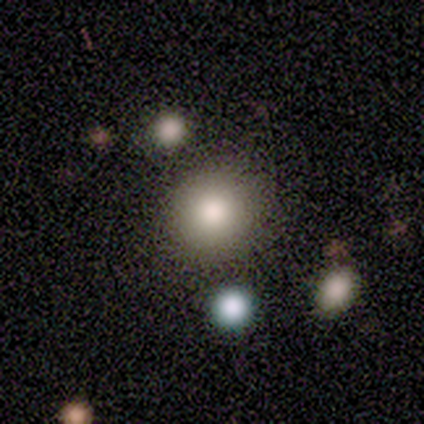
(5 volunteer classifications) smooth 80%, star or artifact 20%, featured or disk 0%. Down the decision tree: how rounded — round (75%); merging — none (100%).